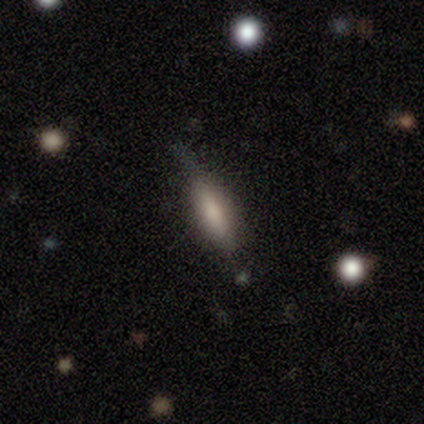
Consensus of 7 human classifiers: Smooth or featured? smooth (71%)
How rounded? cigar-shaped (100%)
Merging? none (57%)